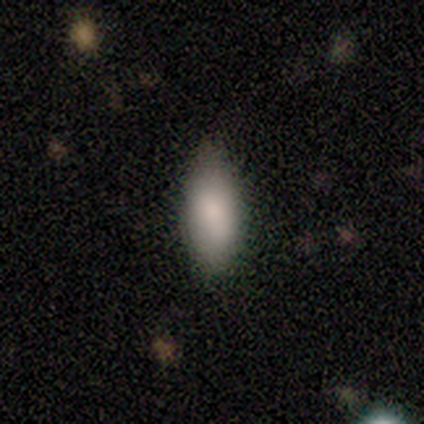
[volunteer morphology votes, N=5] This is clearly a smooth galaxy (100%). How rounded: clearly in between (100%). Merging: clearly none (100%).